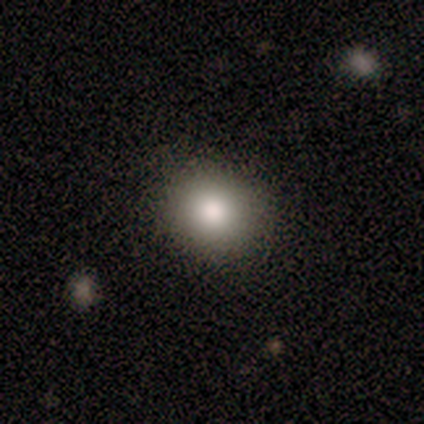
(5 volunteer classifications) A smooth galaxy with no disk features (100%) that is round (60%).

Vote fractions:
- Smooth or featured? smooth: 100% / featured or disk: 0% / star or artifact: 0%
- How rounded? round: 60% / in between: 40% / cigar-shaped: 0%
- Merging? none: 100% / minor disturbance: 0% / major disturbance: 0% / merger: 0%